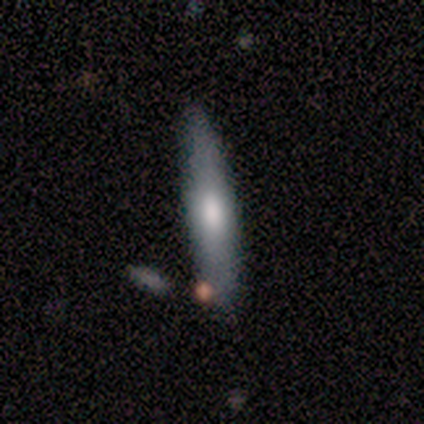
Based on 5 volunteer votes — Smooth or featured? featured or disk (60%)
Edge-on disk? yes (67%)
Edge-on bulge? rounded (100%)
Merging? none (100%)